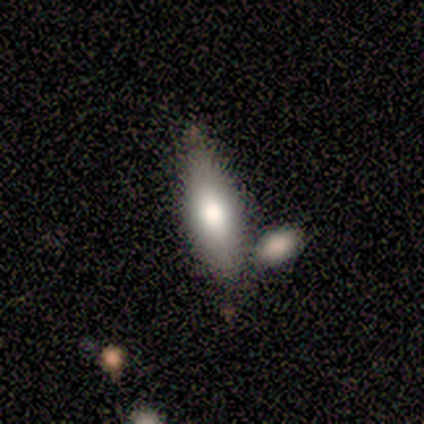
A smooth galaxy with no disk features (76%) that is cigar-shaped (54%).

Vote fractions:
- Smooth or featured? smooth: 76% / featured or disk: 24% / star or artifact: 0%
- How rounded? cigar-shaped: 54% / in between: 46% / round: 0%
- Merging? merger: 41% / minor disturbance: 29% / none: 24% / major disturbance: 6%